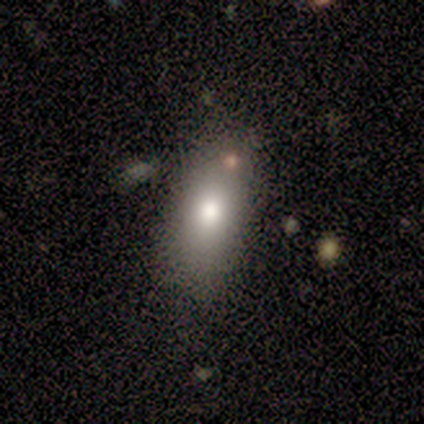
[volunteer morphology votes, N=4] Q: Smooth or featured?
A: smooth (100%)
Q: How rounded?
A: in between (75%); runner-up: cigar-shaped (25%)
Q: Merging?
A: none (100%)